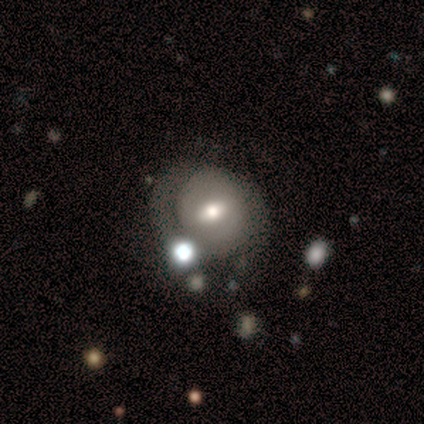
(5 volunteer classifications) smooth-or-featured: smooth: 40% (tied) | featured or disk: 40% (tied) | star or artifact: 20%
  how-rounded: round: 50% (tied) | in between: 50% (tied) | cigar-shaped: 0%
  merging: none: 75% | major disturbance: 25% | minor disturbance: 0% | merger: 0%